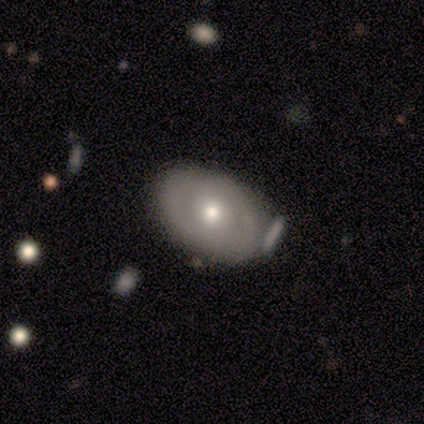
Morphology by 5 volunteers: Q: Smooth or featured?
A: smooth (60%); runner-up: featured or disk (40%)
Q: How rounded?
A: in between (100%)
Q: Merging?
A: none (60%); runner-up: minor disturbance (40%)